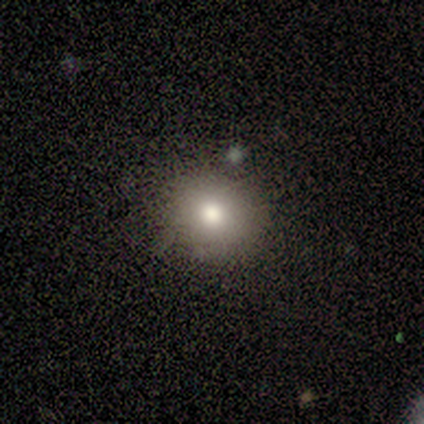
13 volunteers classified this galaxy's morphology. Smooth or featured: smooth — 77% (featured or disk — 23%)
How rounded: round — 60% (in between — 40%)
Merging: none — 69% (minor disturbance — 15%)